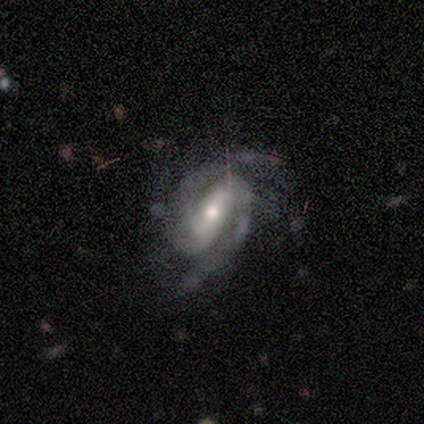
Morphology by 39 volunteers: A featured or disk galaxy (95%) with a strong bar (65%), 2 (54%) tight (49%) spiral arms (100%) and a moderate central bulge (59%). Merging: none (71%).